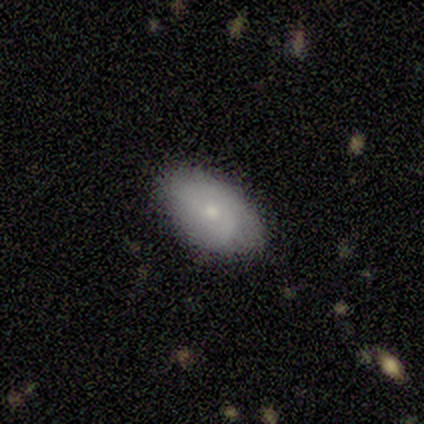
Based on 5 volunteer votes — Smooth or featured: smooth — 60% (featured or disk — 40%)
How rounded: in between — 67% (cigar-shaped — 33%)
Merging: none — 80% (minor disturbance — 20%)